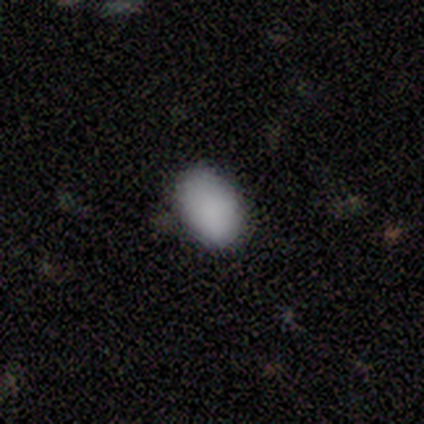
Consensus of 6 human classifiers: smooth 100%, featured or disk 0%, star or artifact 0%. Down the decision tree: how rounded — in between (100%); merging — none (100%).